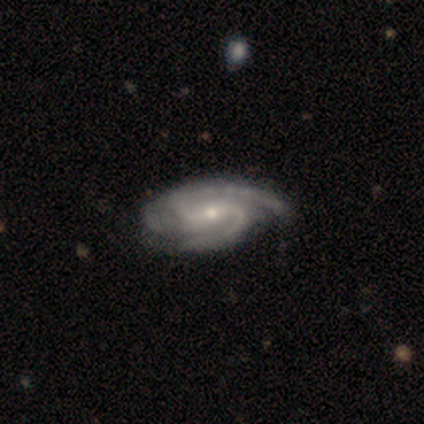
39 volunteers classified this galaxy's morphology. This is clearly a featured or disk galaxy (95%). It is clearly not viewed edge-on (97%). Bar: likely weak (61%). Spiral arm pattern: clearly yes (100%). Spiral arm count: likely 2 (64%). Spiral winding: possibly medium (58%). Central bulge: likely small (75%). Merging: likely none (69%).